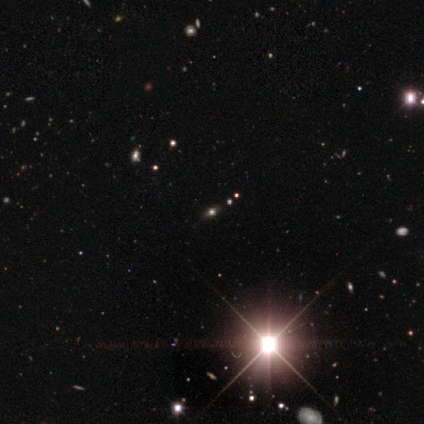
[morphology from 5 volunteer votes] star or artifact 80%, featured or disk 20%, smooth 0%.